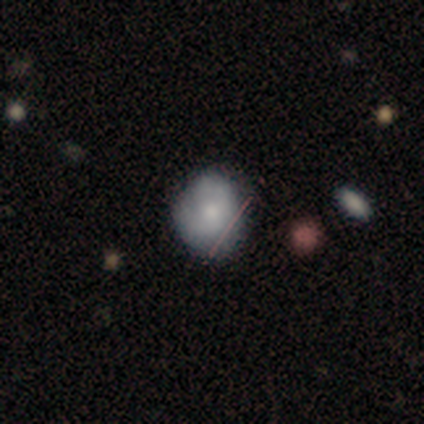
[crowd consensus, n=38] Smooth or featured? 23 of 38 (61%) said smooth. How rounded? 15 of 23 (65%) said round. Merging? 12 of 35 (34%) said none.